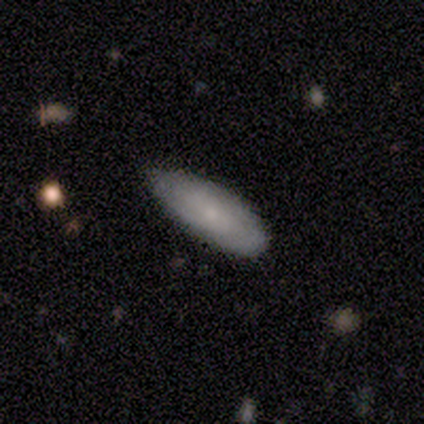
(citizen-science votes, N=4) A smooth galaxy with no disk features (75%) that is cigar-shaped (100%).

Vote fractions:
- Smooth or featured? smooth: 75% / star or artifact: 25% / featured or disk: 0%
- How rounded? cigar-shaped: 100% / round: 0% / in between: 0%
- Merging? none: 33% (tied) / minor disturbance: 33% (tied) / major disturbance: 33% (tied) / merger: 0%